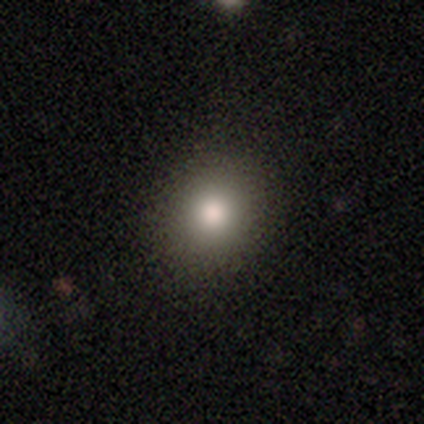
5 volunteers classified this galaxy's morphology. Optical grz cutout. It shows a smooth galaxy with no disk features (100%) that is round (80%). Merging: none (100%).